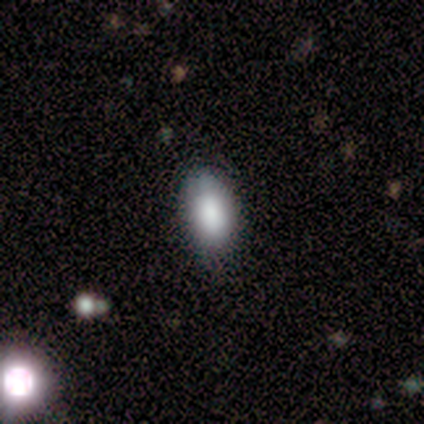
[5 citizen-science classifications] Overall: smooth (100%). How rounded: in between (100%). Merging: none (60%; minor disturbance 40%).